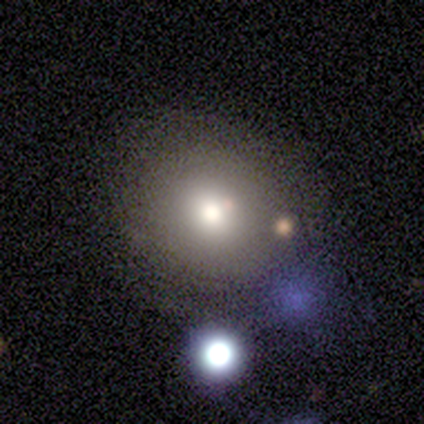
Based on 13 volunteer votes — This is clearly a smooth galaxy (92%). How rounded: clearly round (92%). Merging: likely none (69%).